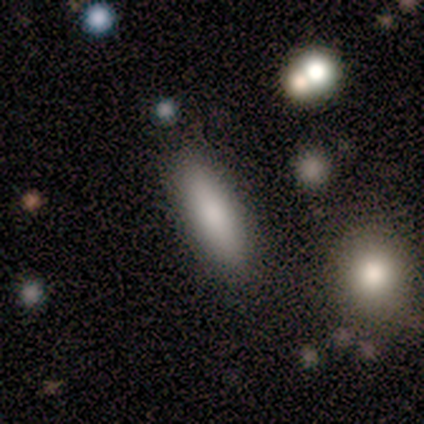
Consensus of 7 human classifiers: This appears to be a smooth galaxy with no disk features (100%) that is cigar-shaped (71%). Merging: none (71%).